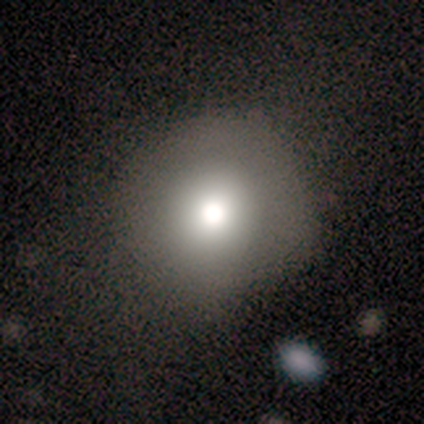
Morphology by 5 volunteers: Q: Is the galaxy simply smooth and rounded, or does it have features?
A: smooth — 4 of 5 (80%).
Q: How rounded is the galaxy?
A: round — 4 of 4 (100%).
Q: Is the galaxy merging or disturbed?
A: none — 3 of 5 (60%).